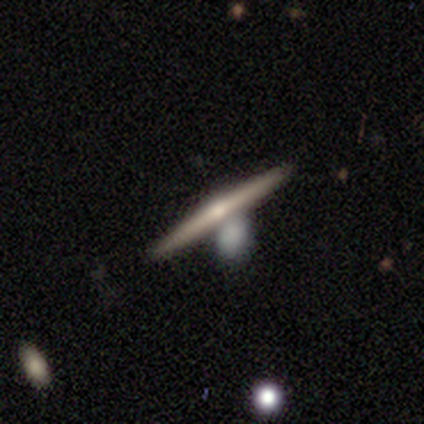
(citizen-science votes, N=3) A featured or disk galaxy (100%) viewed edge-on (67%) with a rounded central bulge (100%).

Vote fractions:
- Smooth or featured? featured or disk: 100% / smooth: 0% / star or artifact: 0%
- Edge-on disk? yes: 67% / no: 33%
- Edge-on bulge? rounded: 100% / boxy: 0% / none: 0%
- Merging? none: 67% / major disturbance: 33% / minor disturbance: 0% / merger: 0%